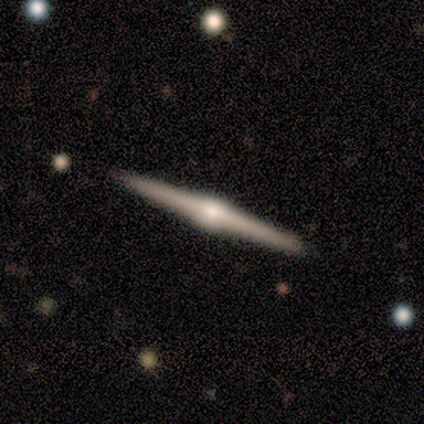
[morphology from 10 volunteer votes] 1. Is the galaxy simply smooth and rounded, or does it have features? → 70% featured or disk, 30% smooth, 0% star or artifact.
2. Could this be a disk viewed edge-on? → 100% yes, 0% no.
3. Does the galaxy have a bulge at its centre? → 86% rounded, 14% boxy, 0% none.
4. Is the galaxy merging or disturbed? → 90% none, 10% minor disturbance, 0% major disturbance, 0% merger.